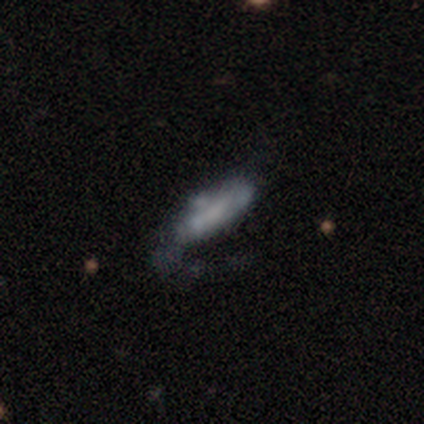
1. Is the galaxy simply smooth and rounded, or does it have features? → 100% smooth, 0% featured or disk, 0% star or artifact.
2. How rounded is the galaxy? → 60% in between, 40% cigar-shaped, 0% round.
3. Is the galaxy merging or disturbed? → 40% merger, 20% none, 20% minor disturbance, 20% major disturbance.